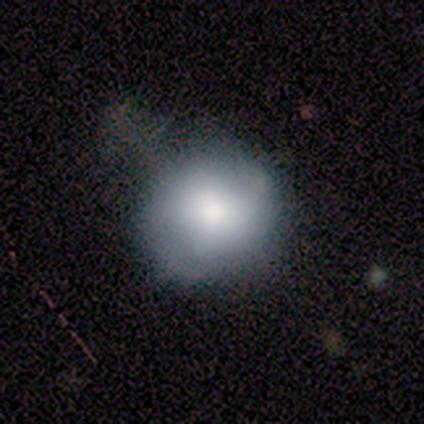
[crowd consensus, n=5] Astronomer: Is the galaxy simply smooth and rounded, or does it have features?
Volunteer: smooth — 80%.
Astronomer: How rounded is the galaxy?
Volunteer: round — 100%.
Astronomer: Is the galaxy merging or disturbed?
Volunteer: minor disturbance — 50%, tied with major disturbance at 50%.